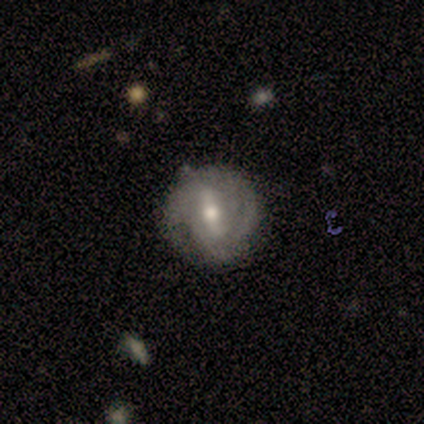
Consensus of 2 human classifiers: A featured or disk galaxy (100%) with a weak bar (100%), 2 (50%, tied with can't tell) tight (50%, tied with medium) spiral arms (100%) and a moderate central bulge (100%). Merging: none (100%).